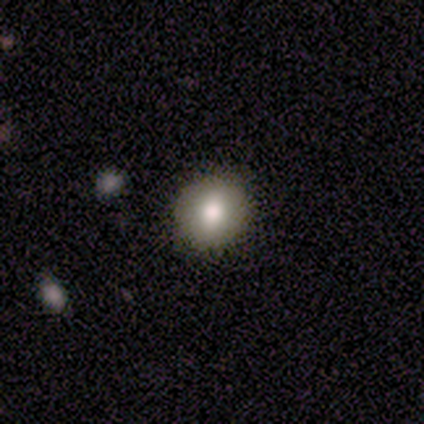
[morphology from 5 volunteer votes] smooth-or-featured: smooth: 100% | featured or disk: 0% | star or artifact: 0%
  how-rounded: round: 60% | in between: 40% | cigar-shaped: 0%
  merging: none: 100% | minor disturbance: 0% | major disturbance: 0% | merger: 0%